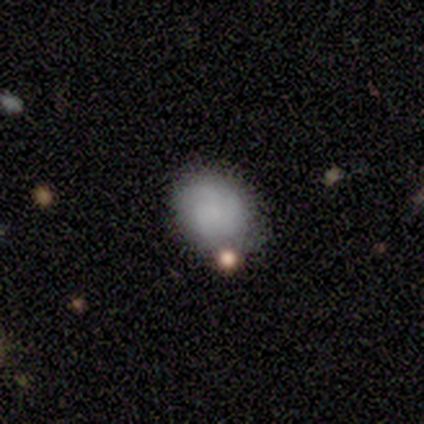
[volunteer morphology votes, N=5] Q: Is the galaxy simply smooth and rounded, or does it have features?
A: smooth — 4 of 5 (80%).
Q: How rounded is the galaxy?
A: round — 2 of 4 (50%, tied with in between).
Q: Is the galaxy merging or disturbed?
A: none — 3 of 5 (60%).